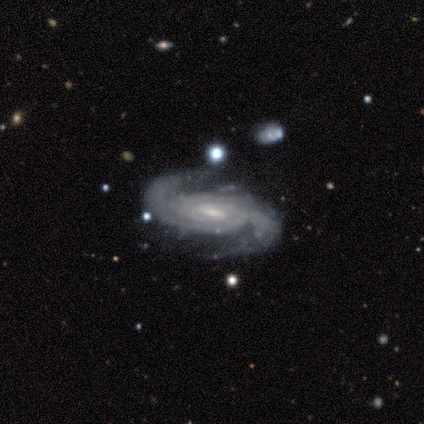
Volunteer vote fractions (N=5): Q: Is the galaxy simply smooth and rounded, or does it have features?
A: featured or disk — 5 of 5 (100%).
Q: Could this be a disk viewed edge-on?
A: no — 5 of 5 (100%).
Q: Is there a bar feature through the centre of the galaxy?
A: weak — 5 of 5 (100%).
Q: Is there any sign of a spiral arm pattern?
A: yes — 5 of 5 (100%).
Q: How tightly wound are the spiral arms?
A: medium — 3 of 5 (60%).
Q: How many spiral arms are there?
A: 2 — 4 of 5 (80%).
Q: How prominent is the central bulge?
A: small — 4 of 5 (80%).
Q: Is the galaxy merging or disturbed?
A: none — 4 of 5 (80%).